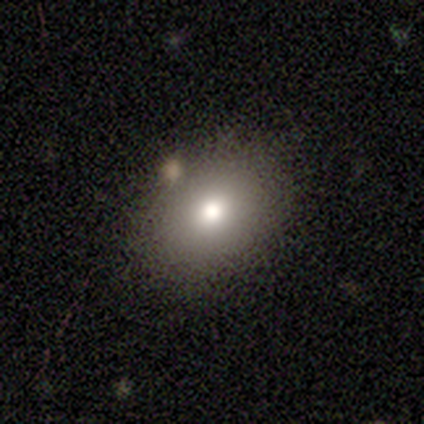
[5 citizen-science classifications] A smooth galaxy with no disk features (60%) that is in between round and cigar-shaped (67%).

Vote fractions:
- Smooth or featured? smooth: 60% / star or artifact: 40% / featured or disk: 0%
- How rounded? in between: 67% / round: 33% / cigar-shaped: 0%
- Merging? none: 67% / minor disturbance: 33% / major disturbance: 0% / merger: 0%